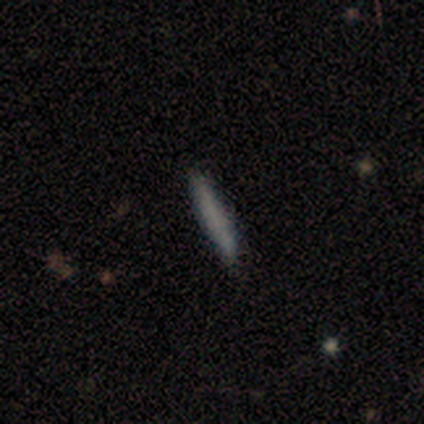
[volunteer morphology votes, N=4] smooth-or-featured: smooth: 50% (tied) | featured or disk: 50% (tied) | star or artifact: 0%
  how-rounded: cigar-shaped: 100% | round: 0% | in between: 0%
  merging: none: 75% | minor disturbance: 25% | major disturbance: 0% | merger: 0%